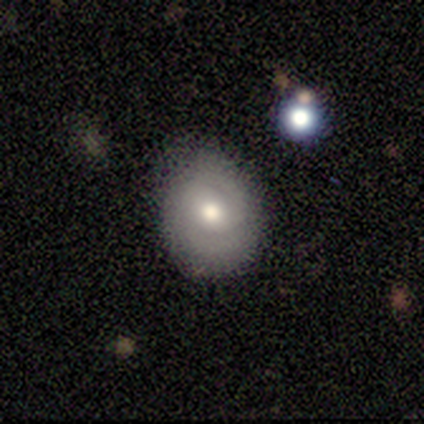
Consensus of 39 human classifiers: Volunteers were most divided on "spiral winding": tight: 47%, medium: 41%, loose: 12%. More confident: edge-on disk — no (100%); bulge size — moderate (86%); spiral arms — yes (81%); spiral arm count — 2 (76%); bar — no (76%); merging — none (69%); smooth or featured — featured or disk (54%).